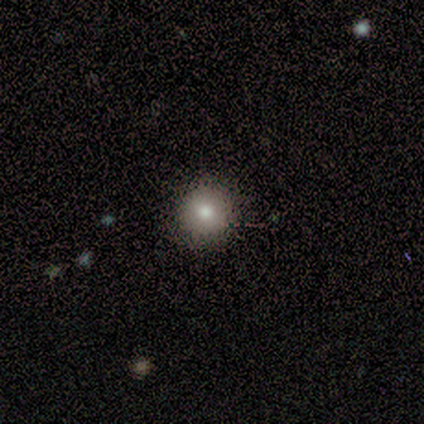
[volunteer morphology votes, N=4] Smooth or featured? smooth (50%)
How rounded? round (100%)
Merging? none (100%)